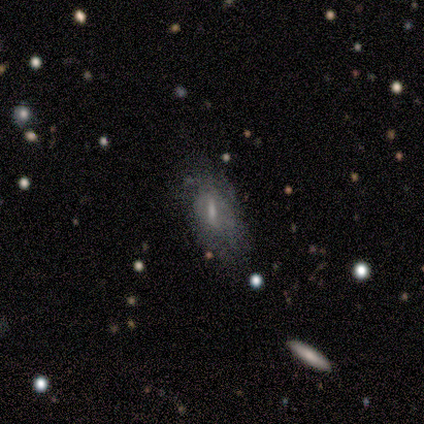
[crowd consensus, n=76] Morphology: type=featured or disk (58%); edge-on=no (95%); bar=strong (43%); spiral arms=no (69%); bulge=small (38%); merging=none (45%).